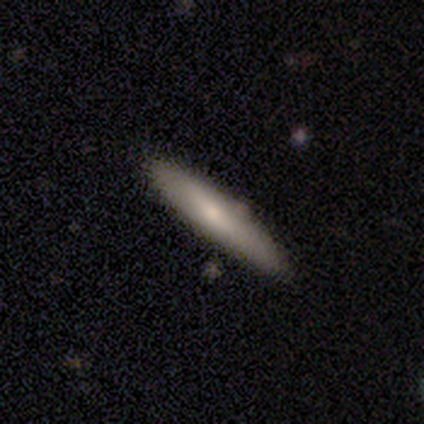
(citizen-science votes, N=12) Morphology: type=smooth (67%); roundness=cigar-shaped (62%); merging=none (100%).